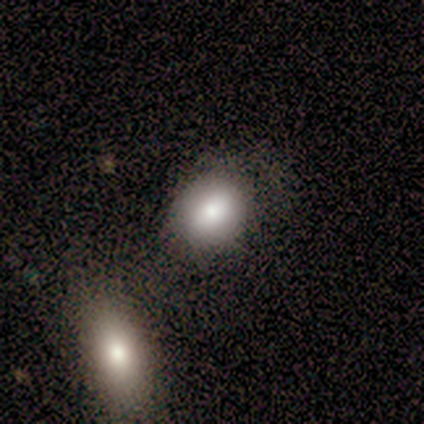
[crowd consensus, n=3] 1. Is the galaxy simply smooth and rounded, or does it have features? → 100% smooth, 0% featured or disk, 0% star or artifact.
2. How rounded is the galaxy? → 100% in between, 0% round, 0% cigar-shaped.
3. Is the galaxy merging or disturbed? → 67% none, 33% minor disturbance, 0% major disturbance, 0% merger.